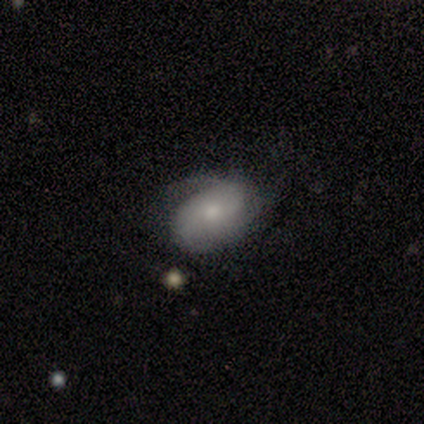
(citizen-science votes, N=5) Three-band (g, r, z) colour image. It shows a smooth galaxy with no disk features (60%) that is in between round and cigar-shaped (100%). Merging: none (80%).